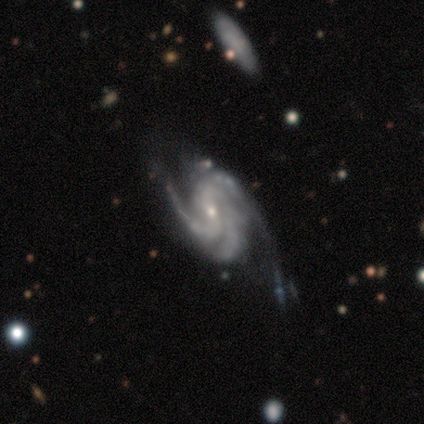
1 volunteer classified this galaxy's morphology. Q: Smooth or featured?
A: featured or disk (100%)
Q: Edge-on disk?
A: no (100%)
Q: Bar?
A: no (100%)
Q: Spiral arms?
A: yes (100%)
Q: Spiral winding?
A: medium (100%)
Q: Spiral arm count?
A: 4 (100%)
Q: Bulge size?
A: small (100%)
Q: Merging?
A: minor disturbance (100%)